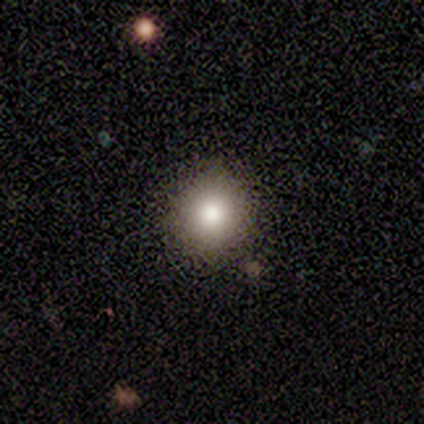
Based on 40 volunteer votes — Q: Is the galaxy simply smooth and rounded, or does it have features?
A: smooth — 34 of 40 (85%).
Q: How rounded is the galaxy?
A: round — 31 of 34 (91%).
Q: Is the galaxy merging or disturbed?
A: none — 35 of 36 (97%).